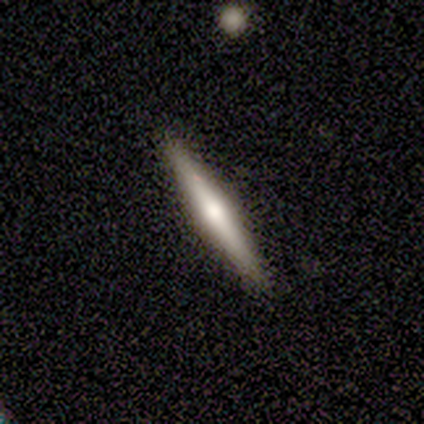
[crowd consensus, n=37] featured or disk 59%, smooth 35%, star or artifact 5%. Down the decision tree: edge-on disk — yes (95%); edge-on bulge — rounded (76%); merging — none (97%).